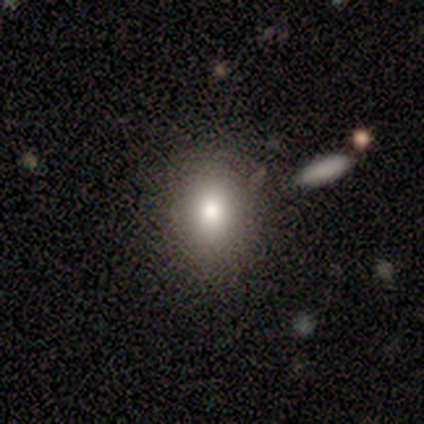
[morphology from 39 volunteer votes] This is likely a smooth galaxy (74%). How rounded: possibly round (52%). Merging: likely none (78%).